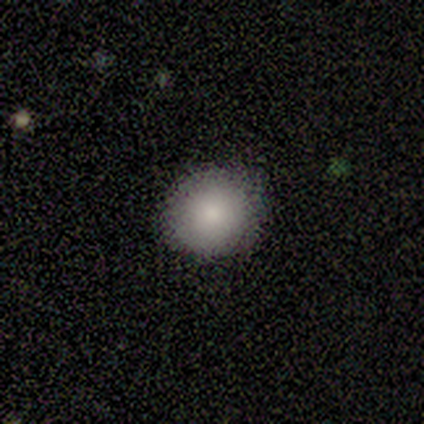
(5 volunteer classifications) A smooth galaxy with no disk features (80%) that is round (75%).

Vote fractions:
- Smooth or featured? smooth: 80% / star or artifact: 20% / featured or disk: 0%
- How rounded? round: 75% / in between: 25% / cigar-shaped: 0%
- Merging? none: 100% / minor disturbance: 0% / major disturbance: 0% / merger: 0%